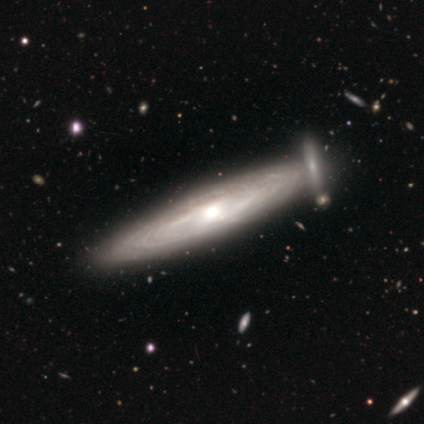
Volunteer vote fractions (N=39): Q: Smooth or featured?
A: featured or disk (90%); runner-up: smooth (10%)
Q: Edge-on disk?
A: no (51%); runner-up: yes (49%)
Q: Bar?
A: weak (50%); tied with: no (50%)
Q: Spiral arms?
A: yes (100%)
Q: Spiral winding?
A: tight (78%); runner-up: medium (11%)
Q: Spiral arm count?
A: can't tell (89%); runner-up: 2 (6%)
Q: Bulge size?
A: moderate (72%); runner-up: small (28%)
Q: Merging?
A: none (69%); runner-up: merger (21%)